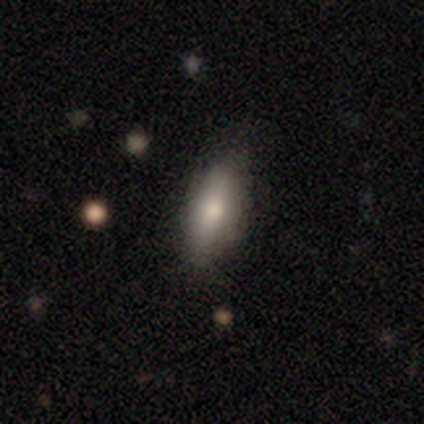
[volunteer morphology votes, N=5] type=smooth (80%); roundness=in between (50%, tied with cigar-shaped); merging=none (100%).